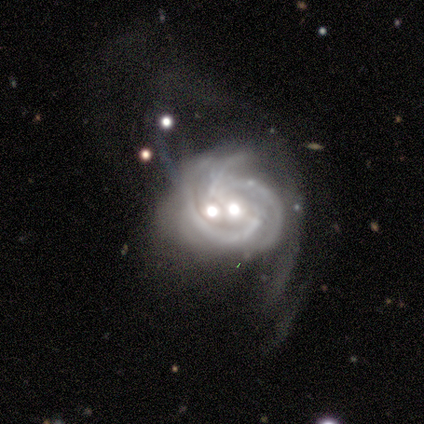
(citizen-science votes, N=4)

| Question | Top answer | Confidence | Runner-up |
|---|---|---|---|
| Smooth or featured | featured or disk | 75% | star or artifact (25%) |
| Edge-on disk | no | 100% | — |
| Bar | no | 67% | weak (33%) |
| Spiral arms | yes | 100% | — |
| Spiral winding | medium | 67% | tight (33%) |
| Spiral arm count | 3 | 67% | 2 (33%) |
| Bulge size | moderate | 67% | none (33%) |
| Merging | merger | 100% | — |